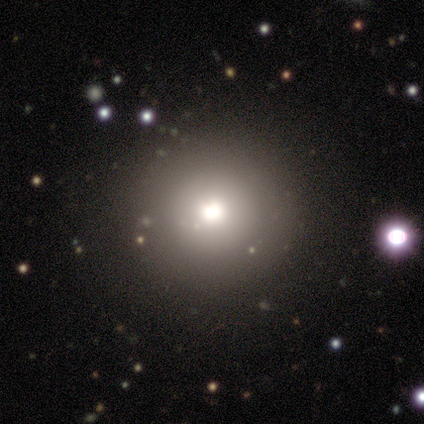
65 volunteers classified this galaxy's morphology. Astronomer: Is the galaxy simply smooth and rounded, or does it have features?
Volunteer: smooth — 77%.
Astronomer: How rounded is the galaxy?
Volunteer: round — 94%.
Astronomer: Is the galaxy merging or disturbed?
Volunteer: none — 65%.